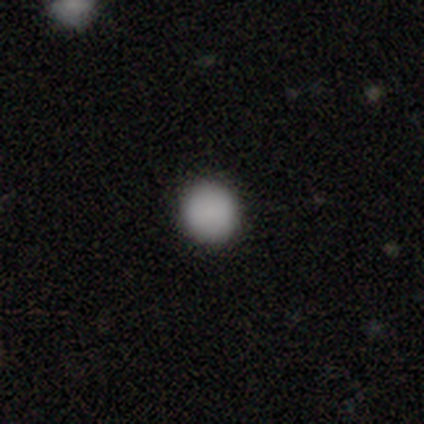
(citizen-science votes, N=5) Overall: smooth (100%). How rounded: round (100%). Merging: none (100%).